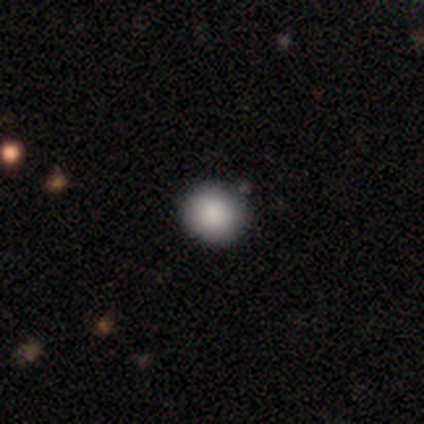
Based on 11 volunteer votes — smooth 91%, featured or disk 9%, star or artifact 0%. Down the decision tree: how rounded — round (90%); merging — none (91%).